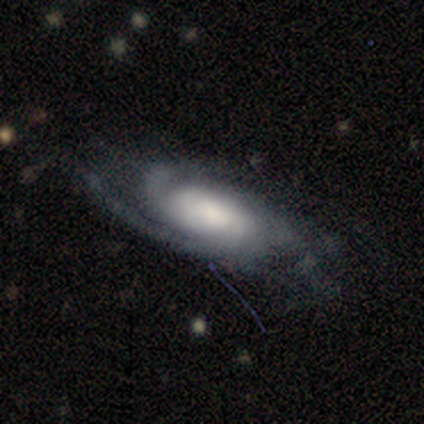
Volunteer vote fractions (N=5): Morphology: type=featured or disk (100%); edge-on=no (80%); bar=no (75%); spiral arms=yes (100%); winding=tight (50%, tied with medium); arm count=3 (50%); bulge=large (75%); merging=none (40%, tied with minor disturbance).